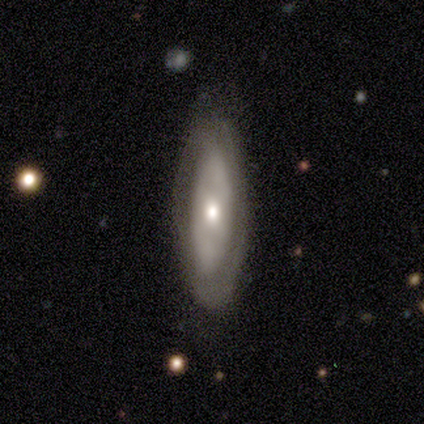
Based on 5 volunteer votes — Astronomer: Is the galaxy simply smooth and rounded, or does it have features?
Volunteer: featured or disk — 60% (runner-up: smooth, 40%).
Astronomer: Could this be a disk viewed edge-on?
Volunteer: no — 100%.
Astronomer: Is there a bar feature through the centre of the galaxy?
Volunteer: no — 100%.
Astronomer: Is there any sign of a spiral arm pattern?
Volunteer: yes — 100%.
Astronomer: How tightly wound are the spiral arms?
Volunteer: tight — 67%.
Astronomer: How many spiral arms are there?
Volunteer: can't tell — 100%.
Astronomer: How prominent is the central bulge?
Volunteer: small — 67%.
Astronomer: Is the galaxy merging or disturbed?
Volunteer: none — 100%.